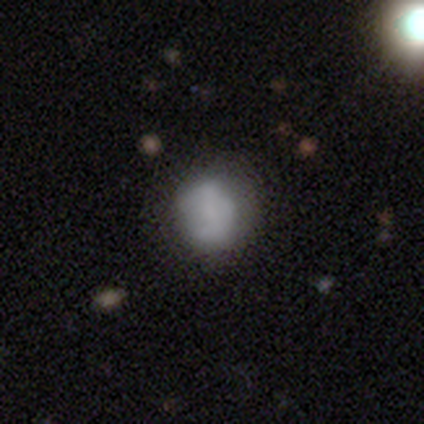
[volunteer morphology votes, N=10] Overall: smooth (80%). How rounded: round (62%; in between 38%). Merging: none (70%; minor disturbance 30%).